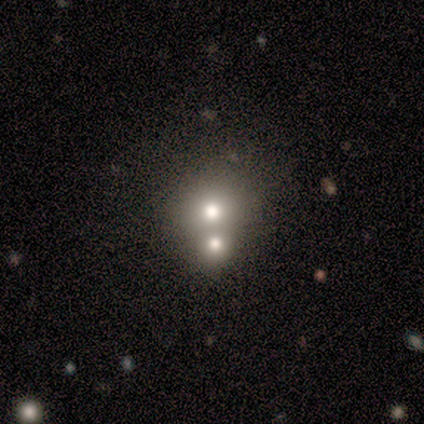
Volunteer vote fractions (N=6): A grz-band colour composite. It shows a smooth galaxy with no disk features (67%) that is round (100%). Merging: merger (75%).